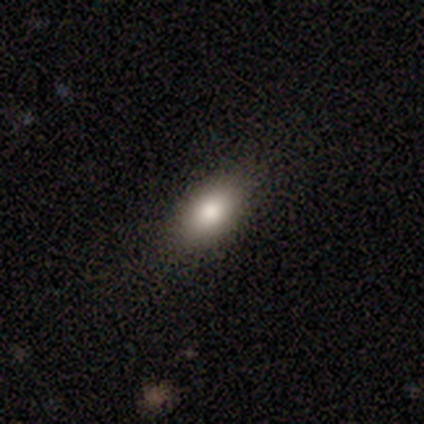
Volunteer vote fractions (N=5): smooth 100%, featured or disk 0%, star or artifact 0%. Down the decision tree: how rounded — in between (100%); merging — none (80%).